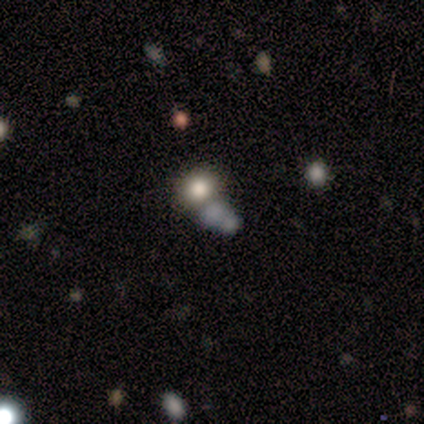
Smooth or featured? 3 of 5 (60%) said star or artifact.